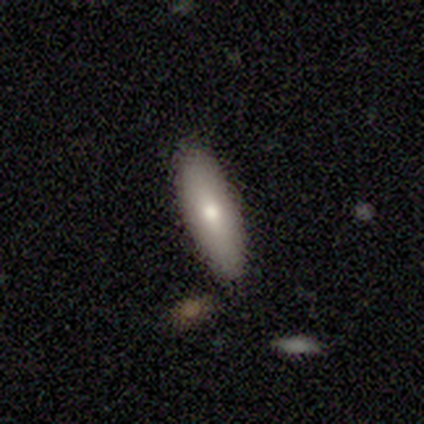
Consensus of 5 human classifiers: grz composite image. It shows a smooth galaxy with no disk features (80%) that is in between round and cigar-shaped (50%, tied with cigar-shaped). Merging: none (100%).